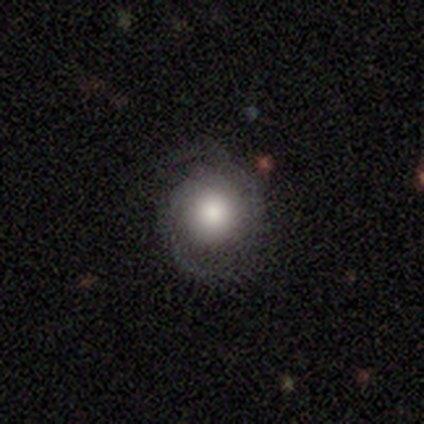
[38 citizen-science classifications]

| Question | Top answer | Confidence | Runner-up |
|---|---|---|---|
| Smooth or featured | featured or disk | 63% | smooth (32%) |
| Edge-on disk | no | 96% | yes (4%) |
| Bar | no | 100% | — |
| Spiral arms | yes | 87% | no (13%) |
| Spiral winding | tight | 50% | medium (45%) |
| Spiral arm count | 2 | 80% | can't tell (10%) |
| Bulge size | large | 61% | moderate (35%) |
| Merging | none | 67% | minor disturbance (25%) |